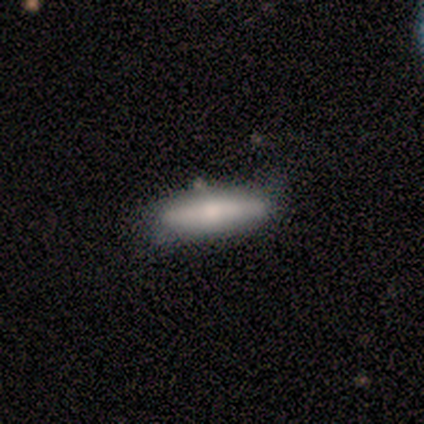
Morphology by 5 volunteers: A featured or disk galaxy (60%) viewed edge-on (100%) with a rounded central bulge (100%). Merging: none (60%).